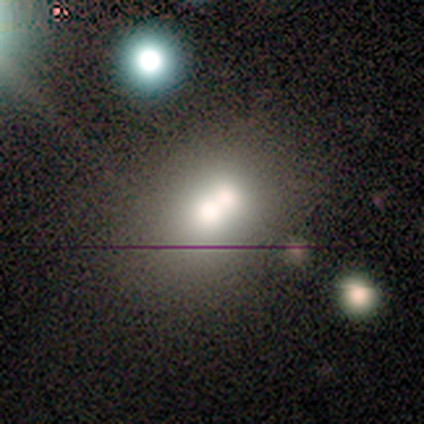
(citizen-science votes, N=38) Smooth or featured?
  - smooth: 50% *
  - featured or disk: 29%
  - star or artifact: 21%
How rounded?
  - round: 74% *
  - in between: 21%
  - cigar-shaped: 5%
Merging?
  - merger: 57% *
  - none: 30%
  - minor disturbance: 10%
  - major disturbance: 3%